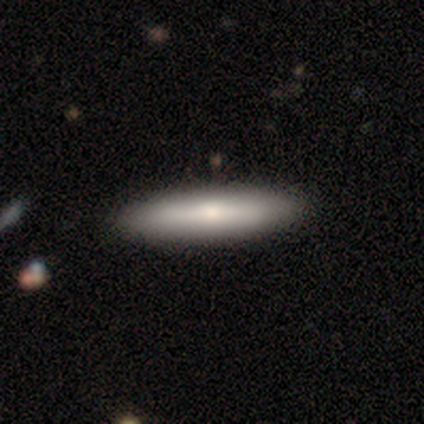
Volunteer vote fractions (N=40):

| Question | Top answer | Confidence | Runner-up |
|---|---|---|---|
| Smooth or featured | smooth | 72% | featured or disk (28%) |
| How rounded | cigar-shaped | 69% | in between (31%) |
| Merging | none | 62% | minor disturbance (5%) |